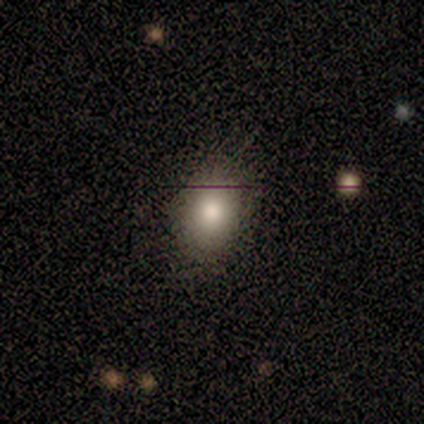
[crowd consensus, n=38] Smooth or featured? 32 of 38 (84%) said smooth. How rounded? 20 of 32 (62%) said in between. Merging? 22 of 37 (59%) said none.